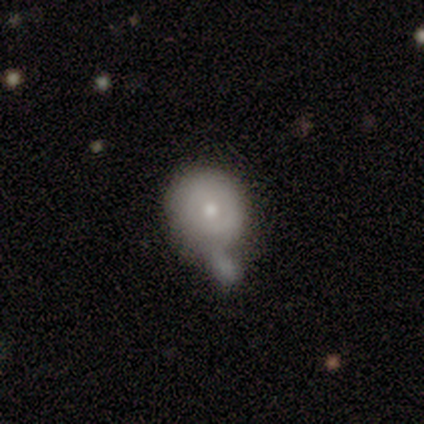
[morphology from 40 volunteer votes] Q: Smooth or featured?
A: smooth (60%); runner-up: featured or disk (30%)
Q: How rounded?
A: round (75%); runner-up: in between (25%)
Q: Merging?
A: merger (53%); runner-up: minor disturbance (19%)